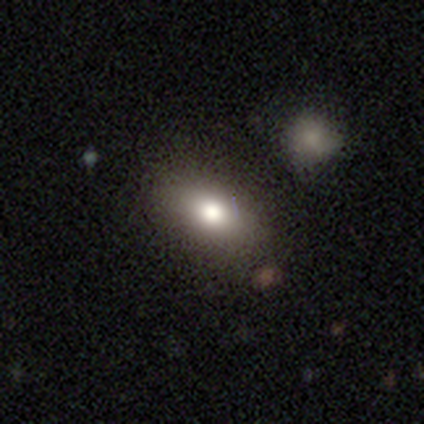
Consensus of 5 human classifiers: Smooth or featured?
  - smooth: 80% *
  - star or artifact: 20%
  - featured or disk: 0%
How rounded?
  - in between: 100% *
  - round: 0%
  - cigar-shaped: 0%
Merging?
  - none: 75% *
  - minor disturbance: 25%
  - major disturbance: 0%
  - merger: 0%